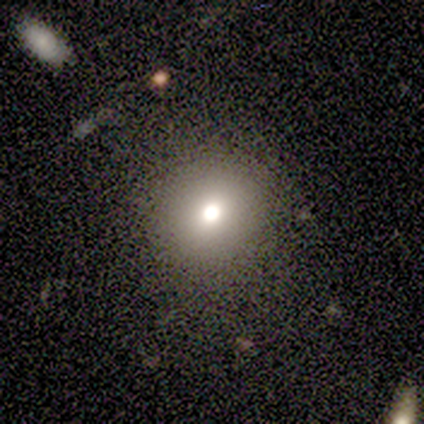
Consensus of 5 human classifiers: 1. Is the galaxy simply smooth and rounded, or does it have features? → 80% smooth, 20% star or artifact, 0% featured or disk.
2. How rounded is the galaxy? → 75% round, 25% in between, 0% cigar-shaped.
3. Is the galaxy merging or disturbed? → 100% none, 0% minor disturbance, 0% major disturbance, 0% merger.